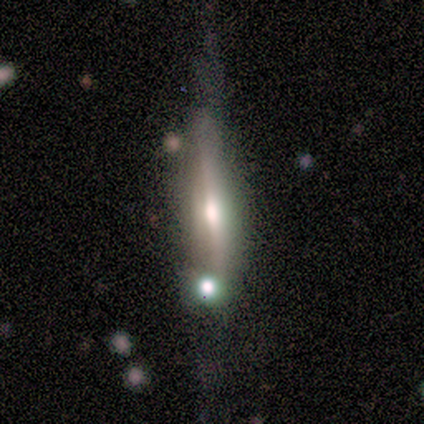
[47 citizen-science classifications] This is likely a featured or disk galaxy (77%). It is clearly viewed edge-on (100%). Edge-on bulge: likely rounded (69%). Merging: marginally none (44%).